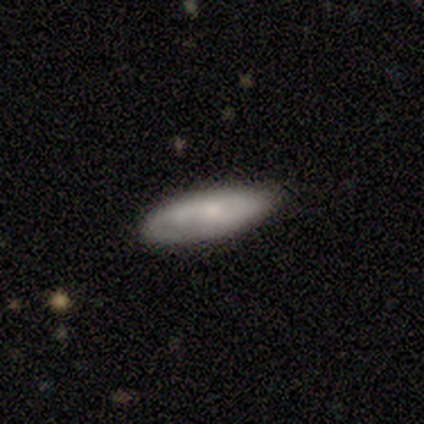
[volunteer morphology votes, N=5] Smooth or featured?
  - smooth: 60% *
  - featured or disk: 40%
  - star or artifact: 0%
How rounded?
  - cigar-shaped: 67% *
  - in between: 33%
  - round: 0%
Merging?
  - none: 60% *
  - minor disturbance: 40%
  - major disturbance: 0%
  - merger: 0%